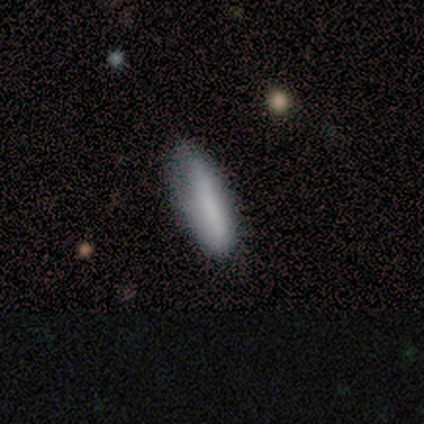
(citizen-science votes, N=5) Smooth or featured?
  - smooth: 60% *
  - featured or disk: 40%
  - star or artifact: 0%
How rounded?
  - in between: 100% *
  - round: 0%
  - cigar-shaped: 0%
Merging?
  - minor disturbance: 60% *
  - none: 40%
  - major disturbance: 0%
  - merger: 0%